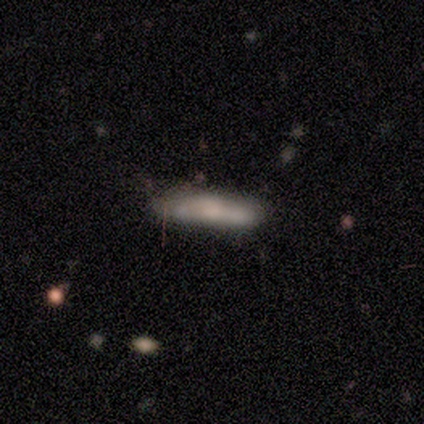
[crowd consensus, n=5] Overall: smooth (60%; featured or disk 40%). How rounded: cigar-shaped (100%). Merging: none (100%).